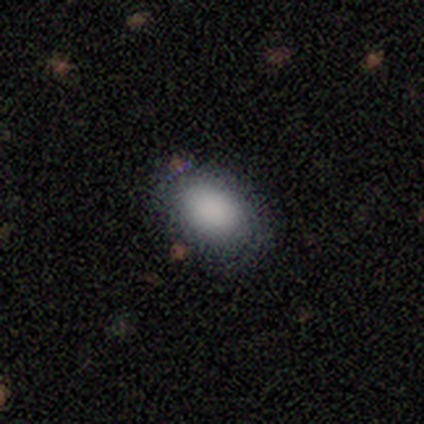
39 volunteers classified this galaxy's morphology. Volunteers were most divided on "merging": none: 80%, minor disturbance: 14%, major disturbance: 6%, merger: 0%. More confident: smooth or featured — smooth (90%); how rounded — in between (89%).